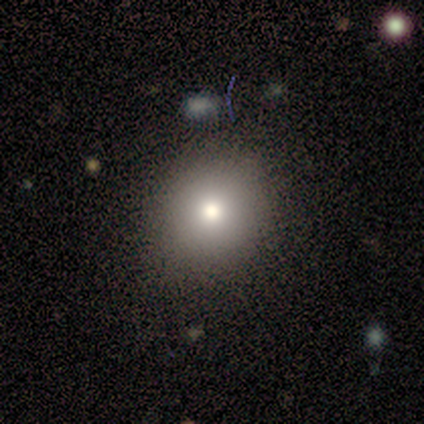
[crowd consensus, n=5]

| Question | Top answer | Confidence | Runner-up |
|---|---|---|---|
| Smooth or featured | smooth | 80% | featured or disk (20%) |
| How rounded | round | 75% | in between (25%) |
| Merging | none | 60% | minor disturbance (20%) |